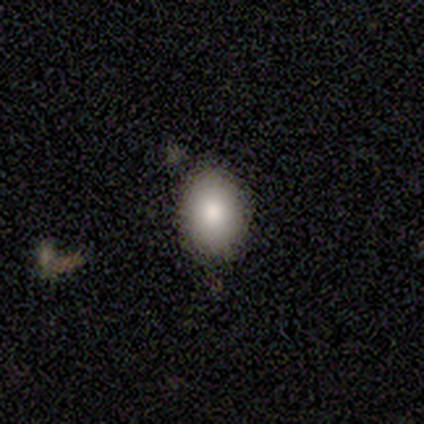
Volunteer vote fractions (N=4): smooth-or-featured: smooth: 100% | featured or disk: 0% | star or artifact: 0%
  how-rounded: round: 75% | in between: 25% | cigar-shaped: 0%
  merging: none: 75% | minor disturbance: 25% | major disturbance: 0% | merger: 0%